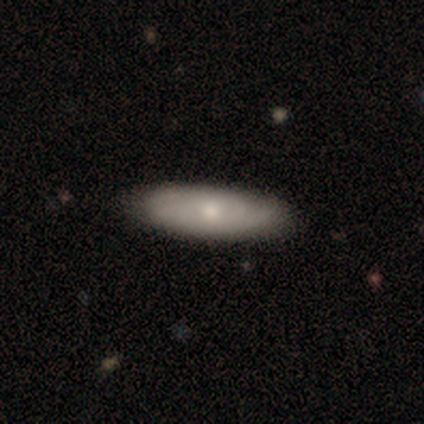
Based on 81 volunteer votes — Overall: smooth (62%; featured or disk 35%). How rounded: in between (64%; cigar-shaped 36%). Merging: none (45%; minor disturbance 5%).